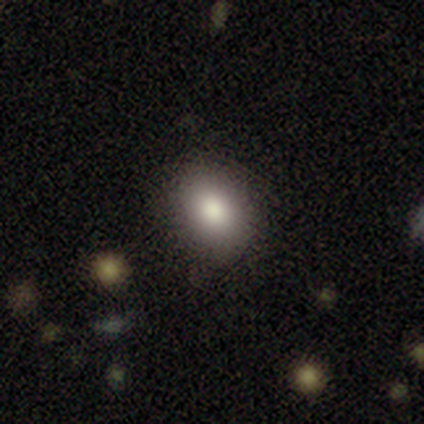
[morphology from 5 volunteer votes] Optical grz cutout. It shows a smooth galaxy with no disk features (80%) that is in between round and cigar-shaped (75%). Merging: none (80%).